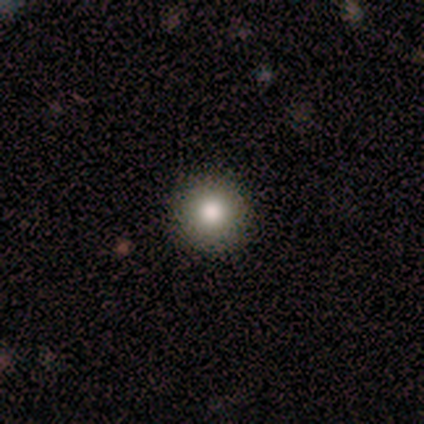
A smooth galaxy with no disk features (100%) that is round (100%).

Vote fractions:
- Smooth or featured? smooth: 100% / featured or disk: 0% / star or artifact: 0%
- How rounded? round: 100% / in between: 0% / cigar-shaped: 0%
- Merging? none: 100% / minor disturbance: 0% / major disturbance: 0% / merger: 0%